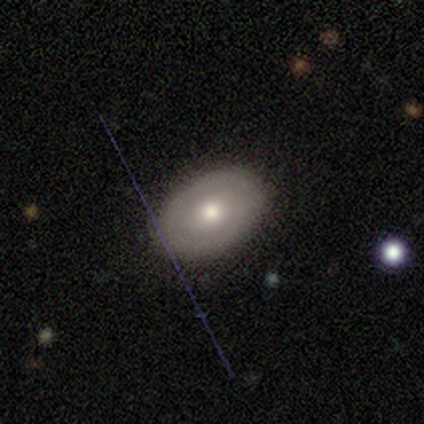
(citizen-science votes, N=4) Smooth or featured? 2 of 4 (50%, tied with featured or disk) said smooth. How rounded? 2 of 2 (100%) said in between. Merging? 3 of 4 (75%) said none.